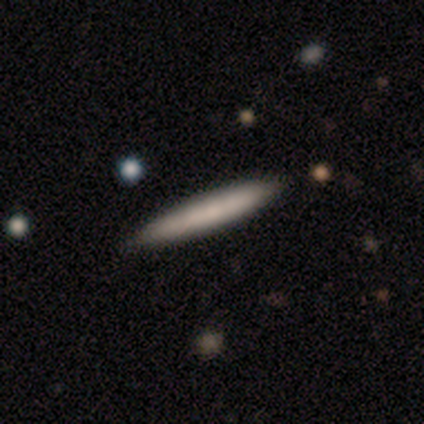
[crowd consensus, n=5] This is clearly a smooth galaxy (80%). How rounded: clearly cigar-shaped (100%). Merging: clearly none (100%).